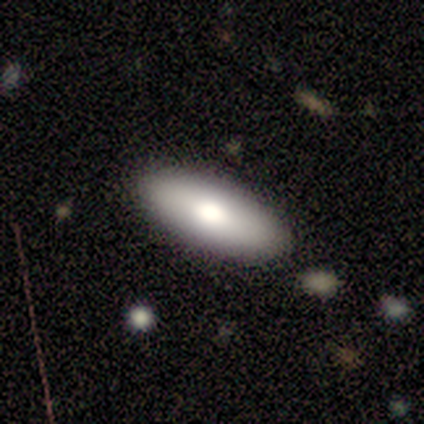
This appears to be a smooth galaxy with no disk features (100%) that is in between round and cigar-shaped (100%). Merging: none (100%).